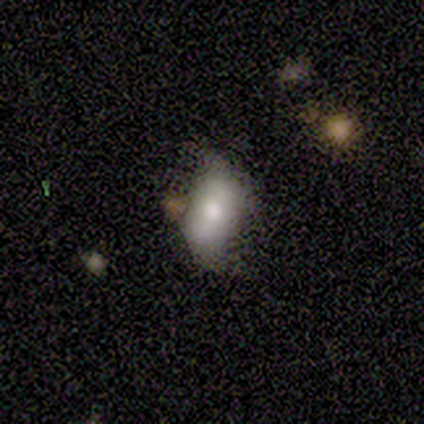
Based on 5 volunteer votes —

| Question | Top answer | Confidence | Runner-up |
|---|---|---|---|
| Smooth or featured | featured or disk | 80% | smooth (20%) |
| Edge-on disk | no | 75% | yes (25%) |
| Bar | no | 67% | weak (33%) |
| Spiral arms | yes | 67% | no (33%) |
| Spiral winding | loose | 100% | — |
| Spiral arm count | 2 | 100% | — |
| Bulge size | moderate | 100% | — |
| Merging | minor disturbance | 40% | tied: major disturbance (40%) |